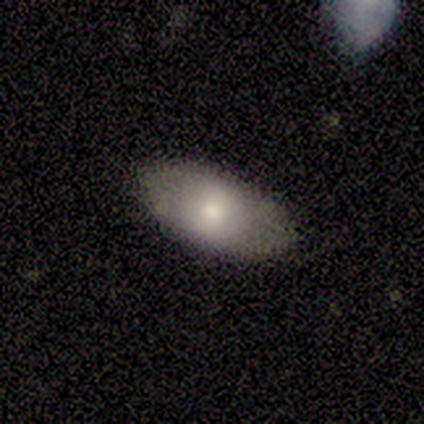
Smooth or featured: smooth — 100%
How rounded: in between — 100%
Merging: none — 100%